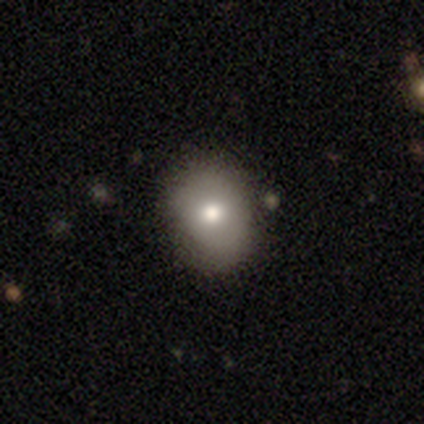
smooth-or-featured: smooth: 80% | featured or disk: 20% | star or artifact: 0%
  how-rounded: round: 50% (tied) | in between: 50% (tied) | cigar-shaped: 0%
  merging: none: 80% | minor disturbance: 20% | major disturbance: 0% | merger: 0%